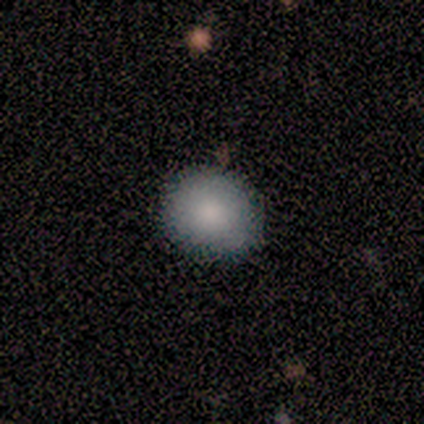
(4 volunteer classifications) A smooth galaxy with no disk features (100%) that is round (75%). Merging: none (75%).